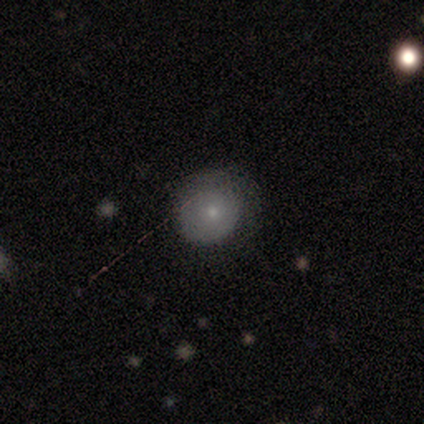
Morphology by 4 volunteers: A smooth galaxy with no disk features (100%) that is round (75%).

Vote fractions:
- Smooth or featured? smooth: 100% / featured or disk: 0% / star or artifact: 0%
- How rounded? round: 75% / in between: 25% / cigar-shaped: 0%
- Merging? none: 50% (tied) / minor disturbance: 50% (tied) / major disturbance: 0% / merger: 0%